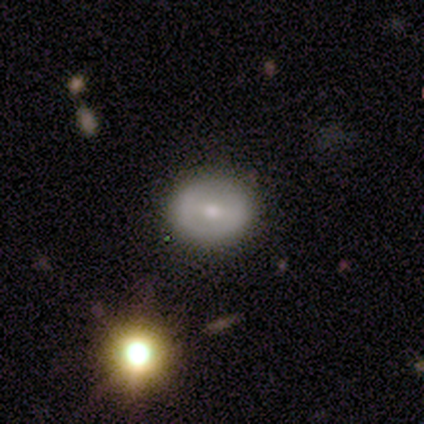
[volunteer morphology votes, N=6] Q: Smooth or featured?
A: smooth (50%); runner-up: featured or disk (33%)
Q: How rounded?
A: round (67%); runner-up: in between (33%)
Q: Merging?
A: none (80%); runner-up: minor disturbance (20%)